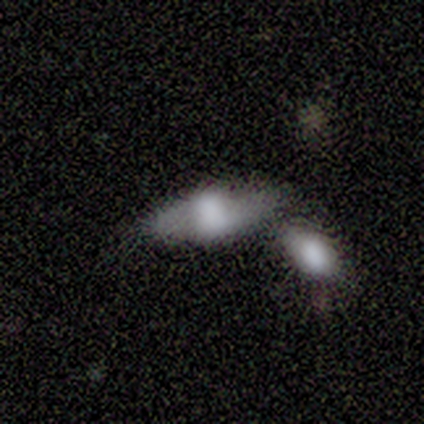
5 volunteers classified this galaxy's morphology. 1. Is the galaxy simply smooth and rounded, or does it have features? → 60% smooth, 20% featured or disk, 20% star or artifact.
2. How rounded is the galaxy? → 100% in between, 0% round, 0% cigar-shaped.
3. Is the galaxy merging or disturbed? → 50% none (tied), 50% merger (tied), 0% minor disturbance, 0% major disturbance.